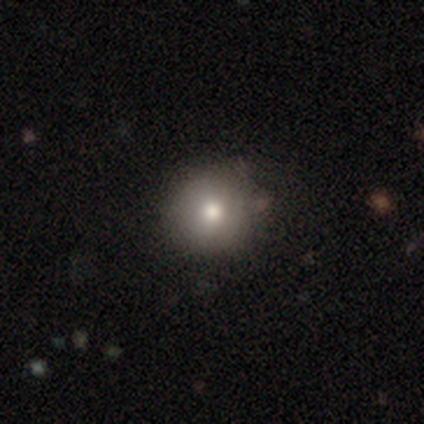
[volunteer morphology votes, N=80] Smooth or featured?
  - smooth: 81% *
  - star or artifact: 10%
  - featured or disk: 9%
How rounded?
  - round: 91% *
  - in between: 9%
  - cigar-shaped: 0%
Merging?
  - none: 47% *
  - minor disturbance: 10%
  - major disturbance: 1%
  - merger: 0%